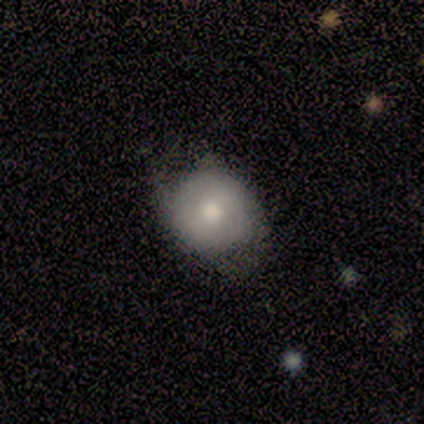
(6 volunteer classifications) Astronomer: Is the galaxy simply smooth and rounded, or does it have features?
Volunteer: smooth — 67%.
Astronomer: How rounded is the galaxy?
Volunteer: round — 75%.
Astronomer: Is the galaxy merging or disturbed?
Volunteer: none — 83%.